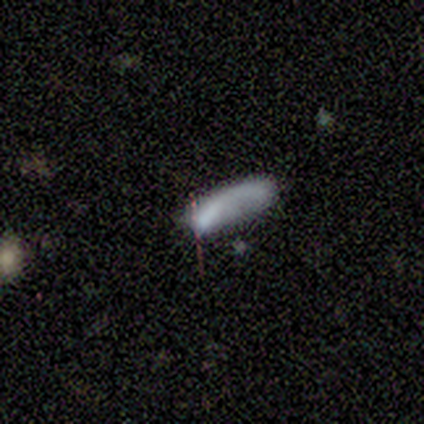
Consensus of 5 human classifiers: Volunteers were most divided on "smooth or featured": smooth: 60%, featured or disk: 40%, star or artifact: 0%. More confident: how rounded — cigar-shaped (100%); merging — none (100%).